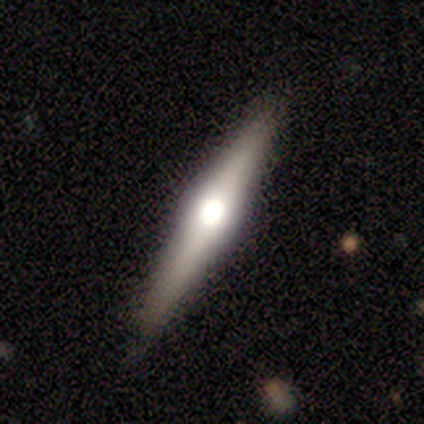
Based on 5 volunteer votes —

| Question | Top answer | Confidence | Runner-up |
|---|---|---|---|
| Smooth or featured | smooth | 60% | featured or disk (40%) |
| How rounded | cigar-shaped | 100% | — |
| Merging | none | 100% | — |